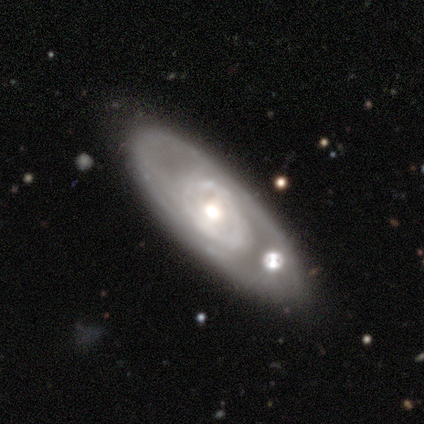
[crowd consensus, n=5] This appears to be a featured or disk galaxy (80%) with a weak bar (67%), 2 (100%) tight (100%) spiral arms (67%) and a moderate central bulge (67%). Merging: none (100%).